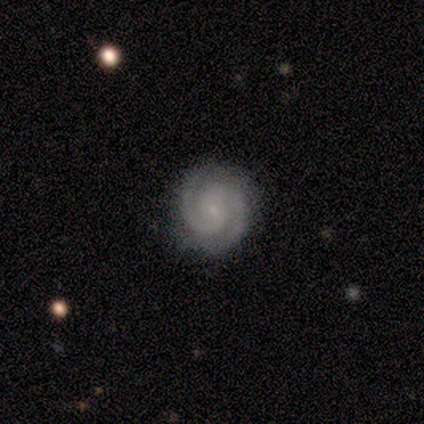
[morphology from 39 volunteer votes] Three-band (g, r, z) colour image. It shows a featured or disk galaxy (92%) with no bar (58%), 2 (83%) tight (58%) spiral arms (100%) and a small central bulge (81%). Merging: none (95%).